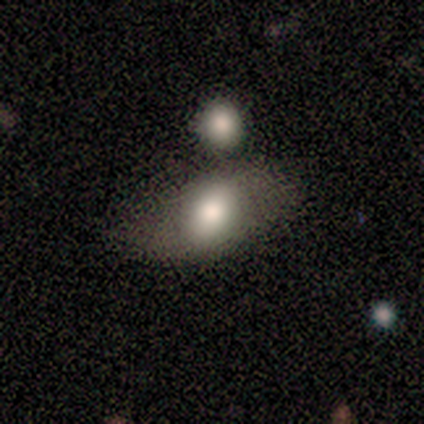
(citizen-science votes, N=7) smooth 100%, featured or disk 0%, star or artifact 0%. Down the decision tree: how rounded — in between (71%); merging — none (43%).